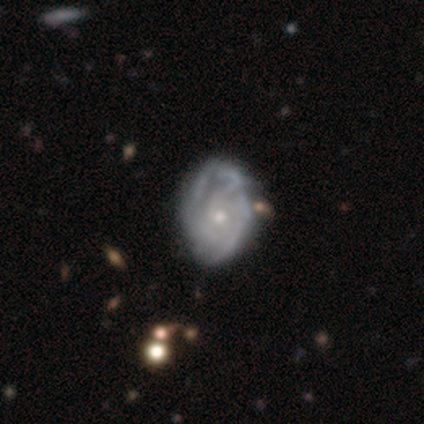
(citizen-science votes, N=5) Smooth or featured?
  - featured or disk: 80% *
  - smooth: 20%
  - star or artifact: 0%
Edge-on disk?
  - no: 100% *
  - yes: 0%
Bar?
  - no: 75% *
  - weak: 25%
  - strong: 0%
Spiral arms?
  - yes: 100% *
  - no: 0%
Spiral winding?
  - tight: 50% *
  - medium: 25%
  - loose: 25%
Spiral arm count?
  - can't tell: 75% *
  - 2: 25%
  - 1: 0%
  - 3: 0%
  - 4: 0%
  - more than 4: 0%
Bulge size?
  - small: 100% *
  - dominant: 0%
  - large: 0%
  - moderate: 0%
  - none: 0%
Merging?
  - minor disturbance: 60% *
  - none: 20%
  - major disturbance: 20%
  - merger: 0%